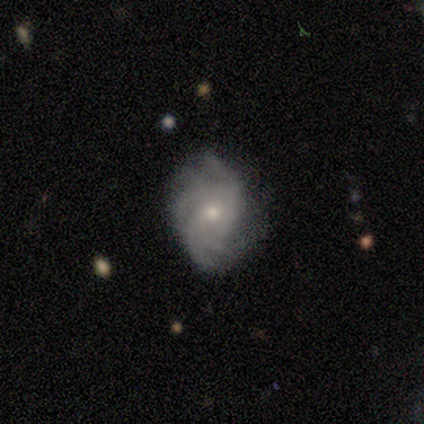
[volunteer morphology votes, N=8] Q: Smooth or featured?
A: featured or disk (100%)
Q: Edge-on disk?
A: no (88%); runner-up: yes (12%)
Q: Bar?
A: no (71%); runner-up: weak (29%)
Q: Spiral arms?
A: yes (86%); runner-up: no (14%)
Q: Spiral winding?
A: medium (67%); runner-up: tight (33%)
Q: Spiral arm count?
A: 4 (83%); runner-up: more than 4 (17%)
Q: Bulge size?
A: small (57%); runner-up: moderate (43%)
Q: Merging?
A: none (50%); tied with: minor disturbance (50%)